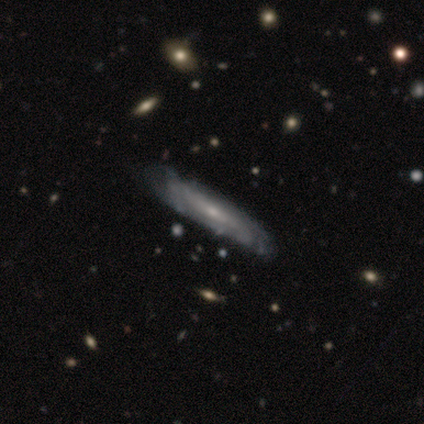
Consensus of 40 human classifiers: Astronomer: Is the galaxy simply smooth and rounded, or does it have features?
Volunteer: featured or disk — 92%.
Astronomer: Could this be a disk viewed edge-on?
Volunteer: no — 62% (runner-up: yes, 38%).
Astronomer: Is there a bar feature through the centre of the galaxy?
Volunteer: no — 61%.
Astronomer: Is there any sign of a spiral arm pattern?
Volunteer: yes — 78%.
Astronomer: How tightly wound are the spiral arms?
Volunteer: tight — 61%.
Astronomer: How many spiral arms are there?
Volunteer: can't tell — 89%.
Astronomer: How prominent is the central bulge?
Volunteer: small — 78%.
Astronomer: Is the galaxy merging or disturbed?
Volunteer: none — 42% (runner-up: minor disturbance, 25%).